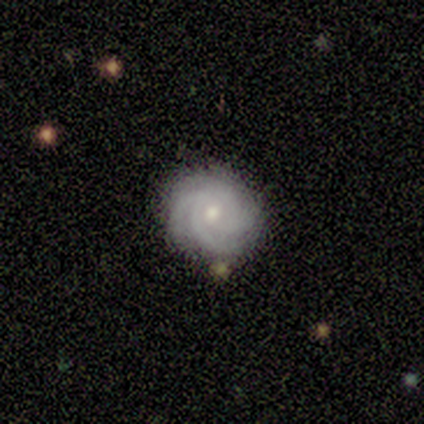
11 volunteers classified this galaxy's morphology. featured or disk 91%, star or artifact 9%, smooth 0%. Down the decision tree: edge-on disk — no (100%); bar — no (70%); spiral arms — yes (100%); spiral arm count — 3 (30%, tied with 4 and can't tell); spiral winding — tight (80%); bulge size — moderate (60%); merging — none (80%).